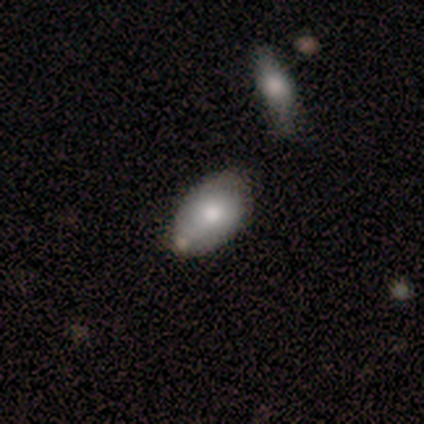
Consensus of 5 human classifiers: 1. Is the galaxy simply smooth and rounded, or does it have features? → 60% smooth, 20% featured or disk, 20% star or artifact.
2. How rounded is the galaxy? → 100% in between, 0% round, 0% cigar-shaped.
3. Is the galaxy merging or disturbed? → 50% minor disturbance, 25% none, 25% merger, 0% major disturbance.